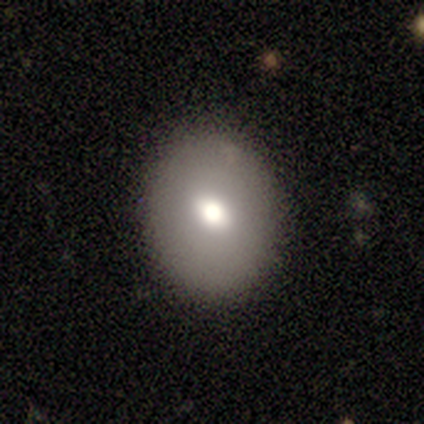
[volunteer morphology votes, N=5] A featured or disk galaxy (60%) with no bar (100%), no spiral arms (100%) and a moderate central bulge (100%).

Vote fractions:
- Smooth or featured? featured or disk: 60% / smooth: 20% / star or artifact: 20%
- Edge-on disk? no: 100% / yes: 0%
- Bar? no: 100% / strong: 0% / weak: 0%
- Spiral arms? no: 100% / yes: 0%
- Bulge size? moderate: 100% / dominant: 0% / large: 0% / small: 0% / none: 0%
- Merging? none: 100% / minor disturbance: 0% / major disturbance: 0% / merger: 0%